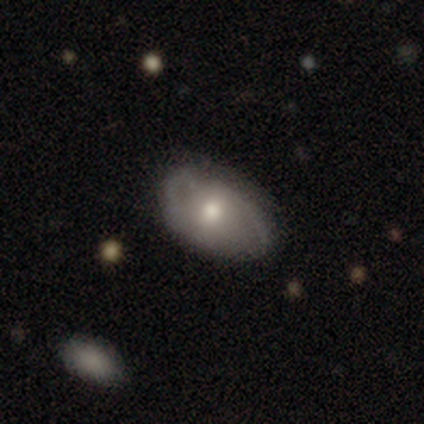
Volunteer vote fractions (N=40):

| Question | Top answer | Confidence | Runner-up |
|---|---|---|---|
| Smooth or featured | featured or disk | 62% | smooth (30%) |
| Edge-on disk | no | 84% | yes (16%) |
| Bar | no | 62% | weak (29%) |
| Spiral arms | yes | 71% | no (29%) |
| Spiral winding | tight | 47% | medium (33%) |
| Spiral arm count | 2 | 60% | can't tell (27%) |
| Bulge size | moderate | 71% | small (19%) |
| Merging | none | 78% | minor disturbance (22%) |